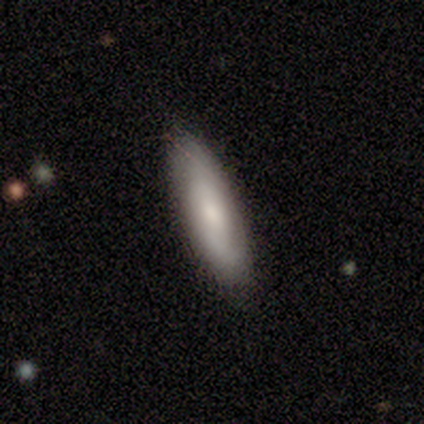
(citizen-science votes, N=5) This appears to be a smooth galaxy with no disk features (80%) that is cigar-shaped (50%). Merging: none (80%).